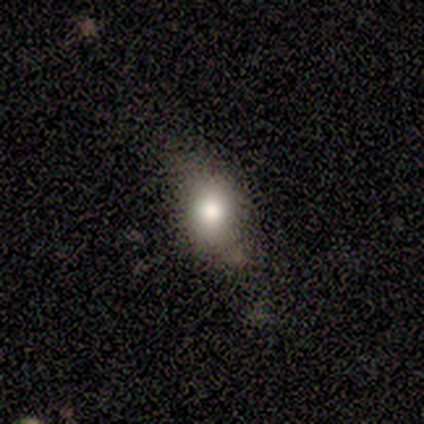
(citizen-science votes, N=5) This is likely a smooth galaxy (60%). How rounded: clearly in between (100%). Merging: likely none (60%).